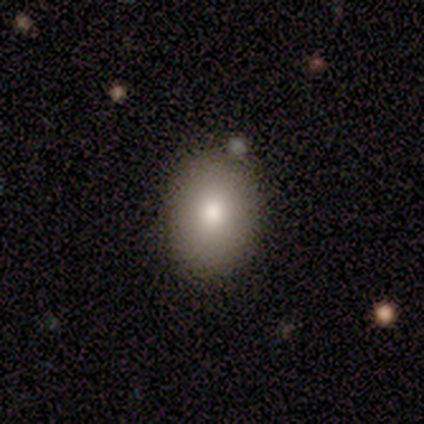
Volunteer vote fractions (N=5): A smooth galaxy with no disk features (100%) that is in between round and cigar-shaped (80%).

Vote fractions:
- Smooth or featured? smooth: 100% / featured or disk: 0% / star or artifact: 0%
- How rounded? in between: 80% / round: 20% / cigar-shaped: 0%
- Merging? none: 60% / minor disturbance: 40% / major disturbance: 0% / merger: 0%